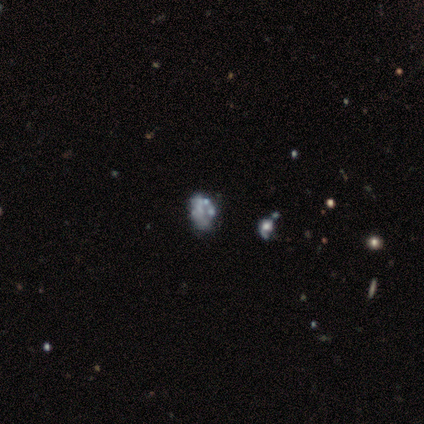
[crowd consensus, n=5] This appears to be a featured or disk galaxy (100%) with no bar (100%), no spiral arms (100%) and no central bulge (60%). Merging: none (60%).